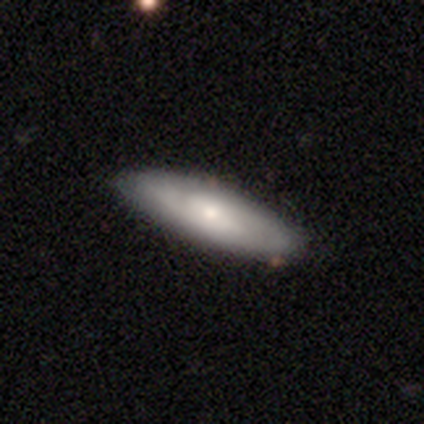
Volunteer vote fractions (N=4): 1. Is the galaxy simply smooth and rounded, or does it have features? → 50% smooth (tied), 50% featured or disk (tied), 0% star or artifact.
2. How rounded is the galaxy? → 50% in between (tied), 50% cigar-shaped (tied), 0% round.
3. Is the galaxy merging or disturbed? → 75% none, 25% minor disturbance, 0% major disturbance, 0% merger.